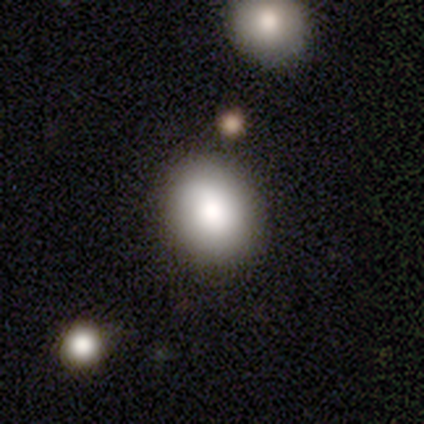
Smooth or featured? 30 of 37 (81%) said smooth. How rounded? 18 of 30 (60%) said round. Merging? 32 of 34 (94%) said none.